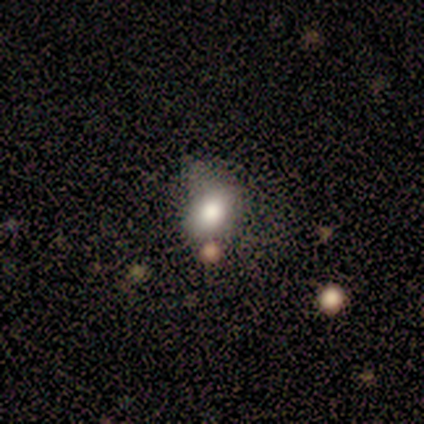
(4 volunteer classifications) Morphology: type=smooth (100%); roundness=in between (75%); merging=none (50%, tied with minor disturbance).